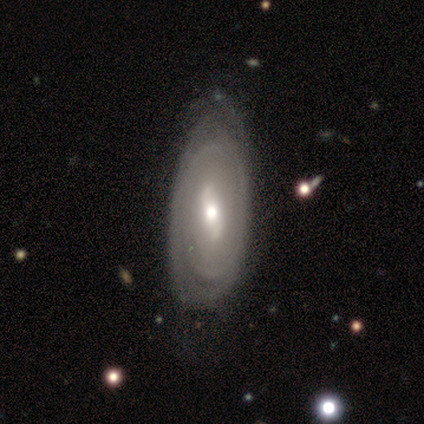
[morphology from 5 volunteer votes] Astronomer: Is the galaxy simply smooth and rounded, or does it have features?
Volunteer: featured or disk — 100%.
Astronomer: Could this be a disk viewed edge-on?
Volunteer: no — 100%.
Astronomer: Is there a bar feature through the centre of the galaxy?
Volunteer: weak — 80%.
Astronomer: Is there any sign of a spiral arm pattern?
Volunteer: no — 60% (runner-up: yes, 40%).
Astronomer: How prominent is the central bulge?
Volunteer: moderate — 60% (runner-up: small, 40%).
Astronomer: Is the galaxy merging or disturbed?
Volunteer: minor disturbance — 80%.